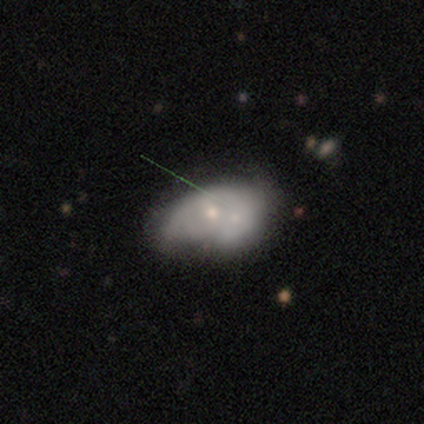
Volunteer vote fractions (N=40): featured or disk 70%, smooth 25%, star or artifact 5%. Down the decision tree: edge-on disk — no (96%); bar — no (78%); spiral arms — no (78%); bulge size — small (56%); merging — merger (45%).